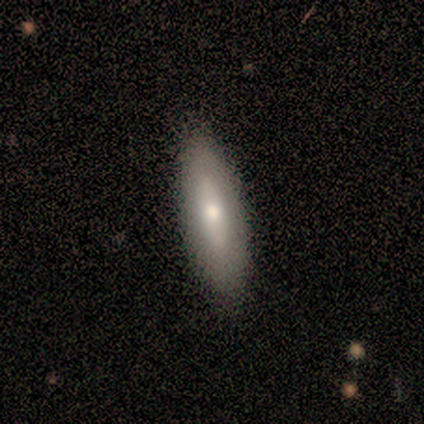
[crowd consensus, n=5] Smooth or featured? smooth (60%)
How rounded? cigar-shaped (67%)
Merging? none (100%)